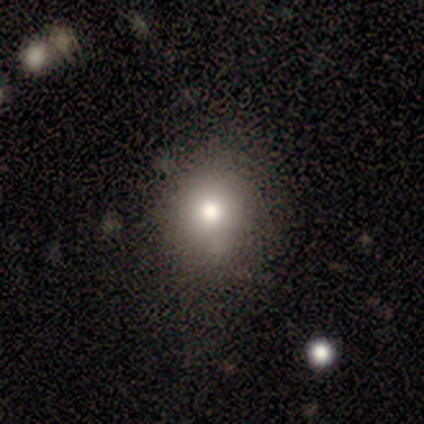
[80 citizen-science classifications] A smooth galaxy with no disk features (84%) that is round (66%). Merging: none (38%).